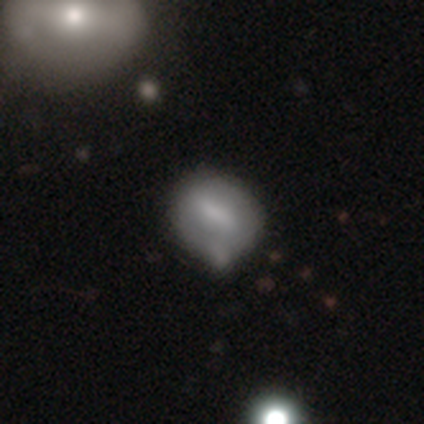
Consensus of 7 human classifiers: smooth 100%, featured or disk 0%, star or artifact 0%. Down the decision tree: how rounded — in between (57%); merging — minor disturbance (43%).